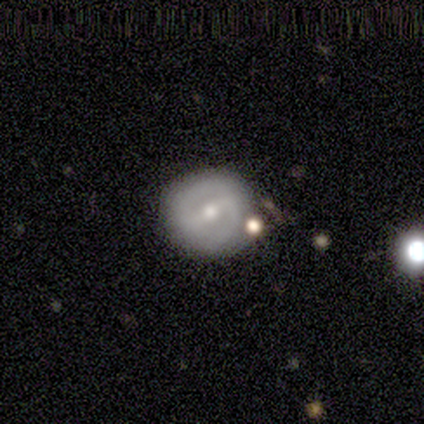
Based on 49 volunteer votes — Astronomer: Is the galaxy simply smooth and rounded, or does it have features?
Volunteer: featured or disk — 76%.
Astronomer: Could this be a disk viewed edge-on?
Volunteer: no — 95%.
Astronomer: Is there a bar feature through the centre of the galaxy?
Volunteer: weak — 46% (runner-up: strong, 37%).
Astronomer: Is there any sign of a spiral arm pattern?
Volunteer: yes — 57% (runner-up: no, 43%).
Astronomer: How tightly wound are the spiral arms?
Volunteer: tight — 45% (runner-up: medium, 35%).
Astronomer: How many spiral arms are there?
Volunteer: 2 — 80%.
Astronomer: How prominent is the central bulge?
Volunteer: moderate — 49% (runner-up: small, 46%).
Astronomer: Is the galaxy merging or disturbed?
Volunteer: none — 67%.